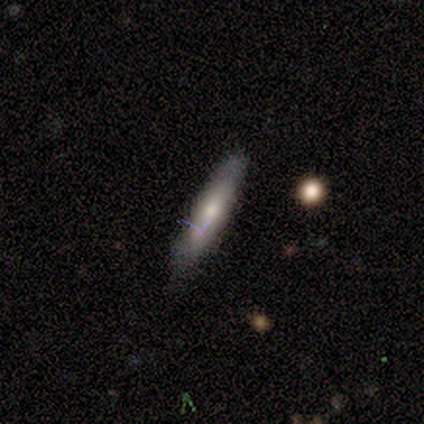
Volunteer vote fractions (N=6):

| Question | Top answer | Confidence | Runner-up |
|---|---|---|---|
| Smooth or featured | smooth | 50% | tied: featured or disk (50%) |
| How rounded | cigar-shaped | 100% | — |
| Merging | none | 100% | — |